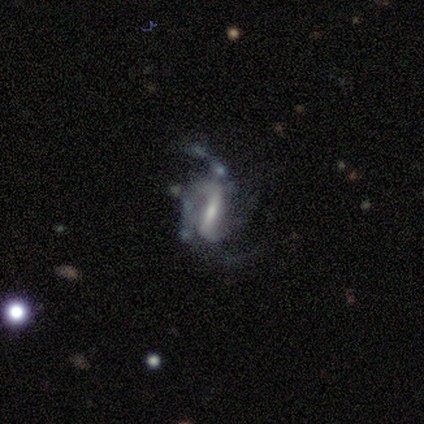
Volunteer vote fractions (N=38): featured or disk 74%, smooth 18%, star or artifact 8%. Down the decision tree: edge-on disk — no (100%); bar — strong (64%); spiral arms — yes (86%); spiral arm count — 2 (33%, tied with can't tell); spiral winding — loose (46%); bulge size — small (50%); merging — major disturbance (40%).